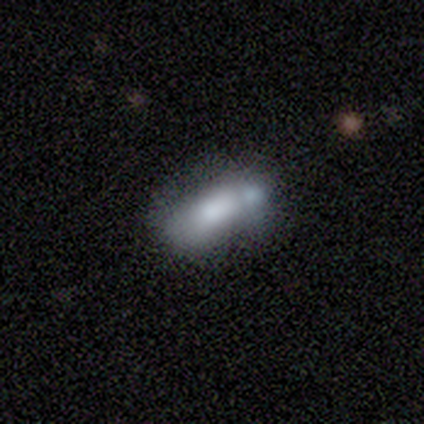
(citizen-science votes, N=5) This is clearly a smooth galaxy (100%). How rounded: clearly in between (100%). Merging: likely merger (60%).